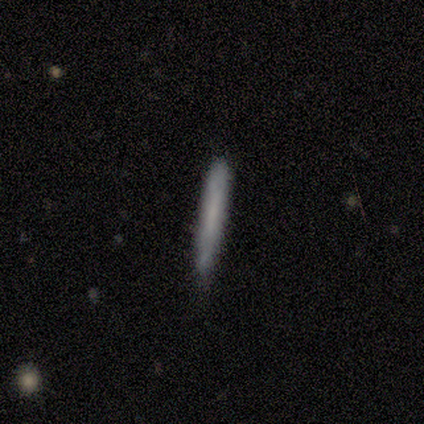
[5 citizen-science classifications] Overall: smooth (80%). How rounded: cigar-shaped (100%). Merging: none (60%; minor disturbance 40%).